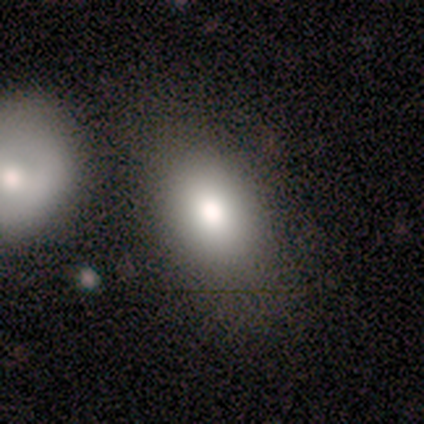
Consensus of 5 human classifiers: This is likely a smooth galaxy (60%). How rounded: likely in between (67%). Merging: clearly none (100%).